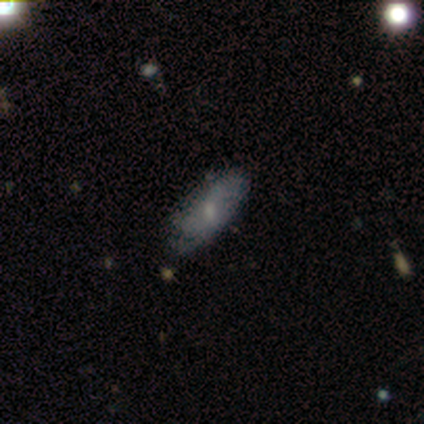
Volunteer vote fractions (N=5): Morphology: type=smooth (80%); roundness=in between (100%); merging=none (50%, tied with minor disturbance).